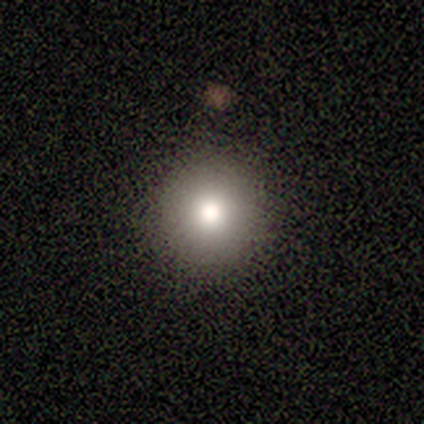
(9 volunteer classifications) Smooth or featured?
  - smooth: 78% *
  - featured or disk: 22%
  - star or artifact: 0%
How rounded?
  - round: 100% *
  - in between: 0%
  - cigar-shaped: 0%
Merging?
  - none: 89% *
  - minor disturbance: 11%
  - major disturbance: 0%
  - merger: 0%